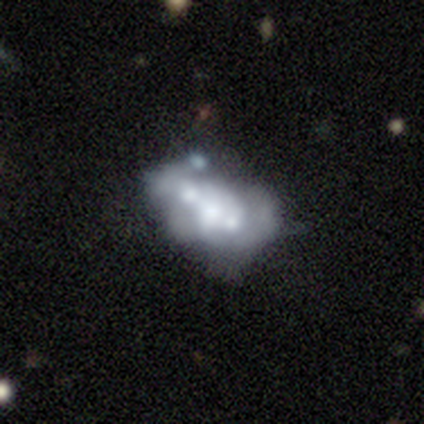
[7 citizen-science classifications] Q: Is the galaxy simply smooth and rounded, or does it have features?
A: smooth — 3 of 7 (43%, tied with featured or disk).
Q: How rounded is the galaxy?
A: in between — 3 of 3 (100%).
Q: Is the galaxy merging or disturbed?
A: minor disturbance — 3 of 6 (50%, tied with merger).